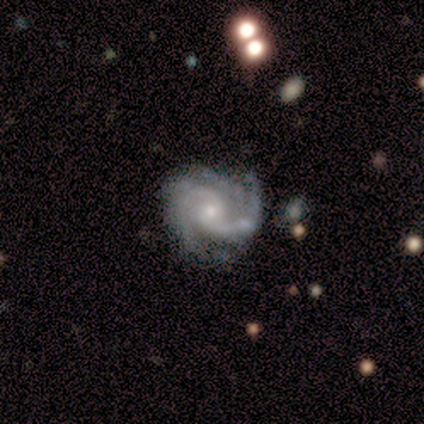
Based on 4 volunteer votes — Overall: featured or disk (100%). Edge-on disk: no (100%). Bar: weak (50%, tied with no). Spiral arms: yes (100%). Spiral arm count: 2 (75%). Spiral winding: medium (100%). Bulge size: small (100%). Merging: minor disturbance (75%).